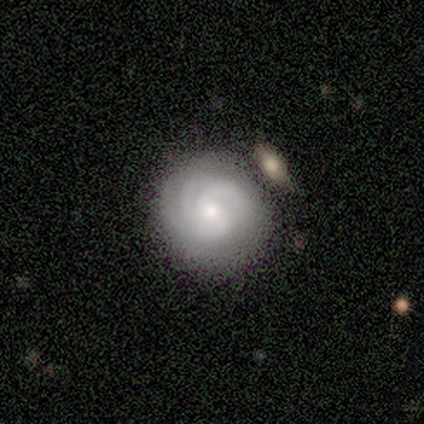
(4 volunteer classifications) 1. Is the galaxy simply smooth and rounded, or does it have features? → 75% featured or disk, 25% smooth, 0% star or artifact.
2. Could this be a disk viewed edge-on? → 100% no, 0% yes.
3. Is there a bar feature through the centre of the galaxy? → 100% no, 0% strong, 0% weak.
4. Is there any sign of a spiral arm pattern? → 67% yes, 33% no.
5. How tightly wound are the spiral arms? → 50% tight (tied), 50% medium (tied), 0% loose.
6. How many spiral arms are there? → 100% 3, 0% 1, 0% 2, 0% 4, 0% more than 4, 0% can't tell.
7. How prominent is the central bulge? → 33% large (tied), 33% moderate (tied), 33% small (tied), 0% dominant, 0% none.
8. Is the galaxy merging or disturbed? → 75% none, 25% merger, 0% minor disturbance, 0% major disturbance.